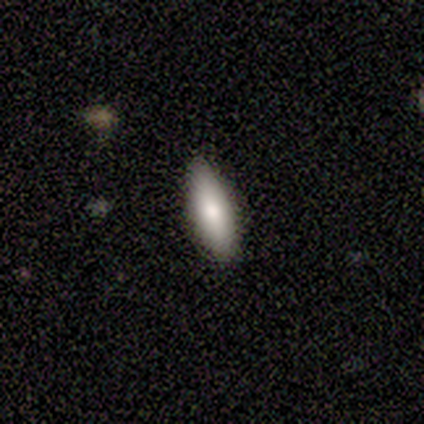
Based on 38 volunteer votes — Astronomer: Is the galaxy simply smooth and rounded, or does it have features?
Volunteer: smooth — 87%.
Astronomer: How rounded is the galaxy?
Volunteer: cigar-shaped — 61% (runner-up: in between, 39%).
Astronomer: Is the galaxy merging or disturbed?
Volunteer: none — 86%.